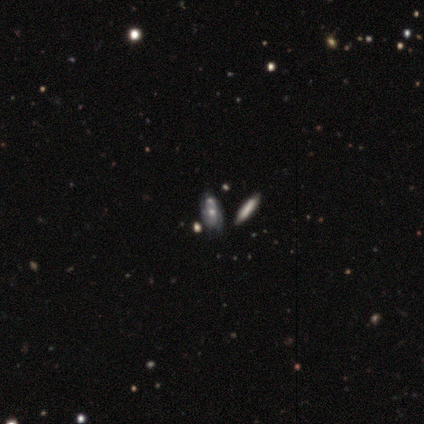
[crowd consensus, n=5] A smooth galaxy with no disk features (60%) that is in between round and cigar-shaped (67%).

Vote fractions:
- Smooth or featured? smooth: 60% / featured or disk: 40% / star or artifact: 0%
- How rounded? in between: 67% / cigar-shaped: 33% / round: 0%
- Merging? none: 80% / merger: 20% / minor disturbance: 0% / major disturbance: 0%